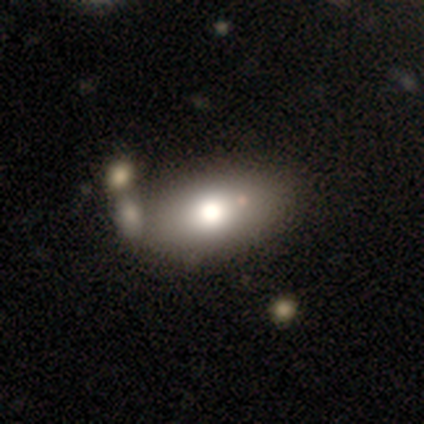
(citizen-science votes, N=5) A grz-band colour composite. It shows a smooth galaxy with no disk features (80%) that is in between round and cigar-shaped (100%). Merging: none (50%).